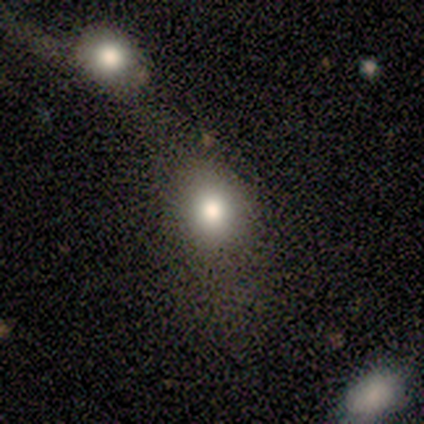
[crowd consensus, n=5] This appears to be a smooth galaxy with no disk features (100%) that is round (80%). Merging: none (80%).